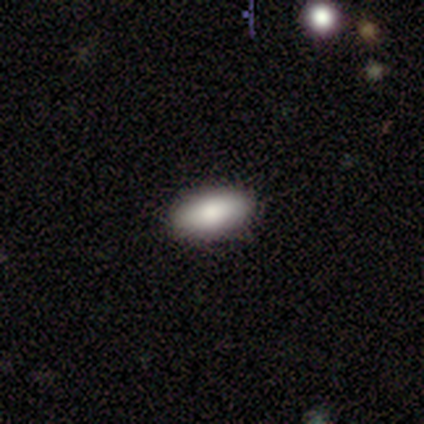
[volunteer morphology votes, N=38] Volunteers were most divided on "merging": none: 86%, minor disturbance: 8%, major disturbance: 6%, merger: 0%. More confident: how rounded — in between (91%); smooth or featured — smooth (89%).